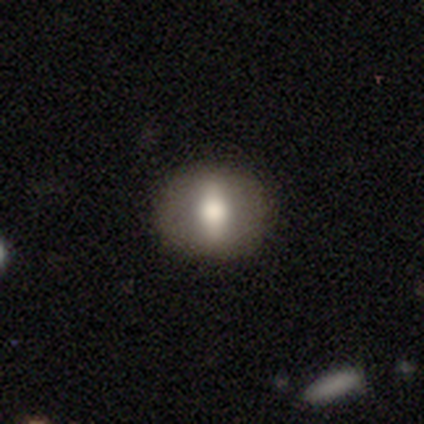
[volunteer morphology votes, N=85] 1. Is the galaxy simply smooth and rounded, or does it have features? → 62% smooth, 28% featured or disk, 9% star or artifact.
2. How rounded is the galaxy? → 66% round, 30% in between, 4% cigar-shaped.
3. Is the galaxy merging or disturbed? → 88% none, 10% minor disturbance, 1% major disturbance, 0% merger.